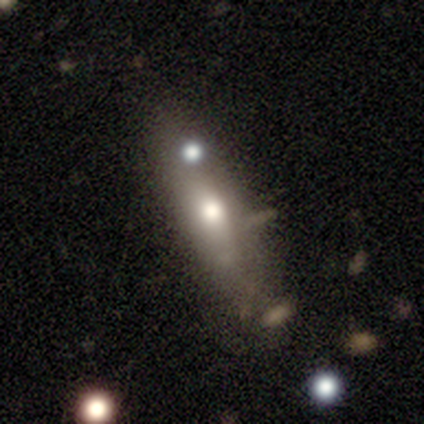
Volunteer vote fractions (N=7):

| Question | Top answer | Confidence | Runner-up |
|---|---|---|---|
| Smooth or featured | smooth | 86% | featured or disk (14%) |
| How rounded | cigar-shaped | 83% | in between (17%) |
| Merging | none | 86% | minor disturbance (14%) |